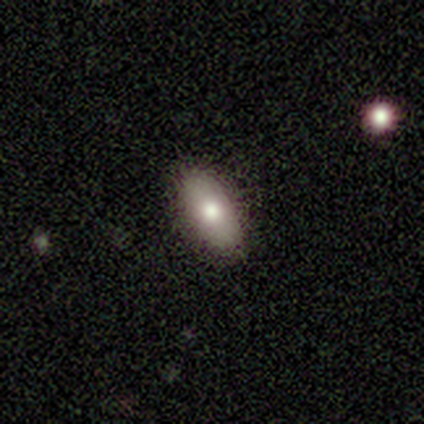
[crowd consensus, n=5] Smooth or featured? 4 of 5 (80%) said smooth. How rounded? 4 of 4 (100%) said in between. Merging? 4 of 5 (80%) said none.